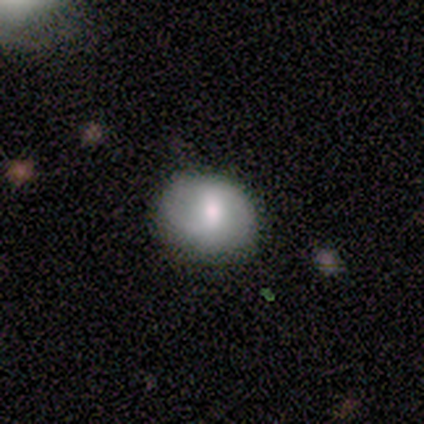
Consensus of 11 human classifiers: smooth-or-featured: featured or disk: 55% | smooth: 45% | star or artifact: 0%
  disk-edge-on: no: 100% | yes: 0%
    bar: strong: 50% | no: 33% | weak: 17%
    has-spiral-arms: yes: 50% (tied) | no: 50% (tied)
      spiral-winding: medium: 67% | loose: 33% | tight: 0%
      spiral-arm-count: 2: 100% | 1: 0% | 3: 0% | 4: 0% | more than 4: 0% | can't tell: 0%
    bulge-size: small: 50% | moderate: 33% | large: 17% | dominant: 0% | none: 0%
  merging: none: 73% | minor disturbance: 27% | major disturbance: 0% | merger: 0%